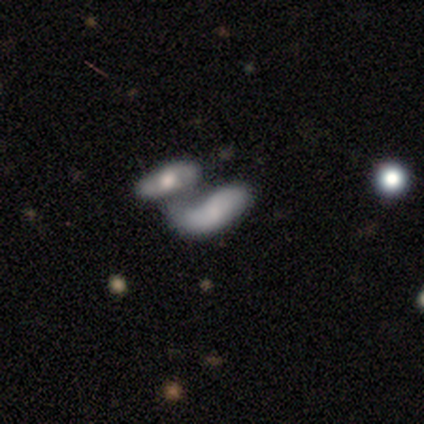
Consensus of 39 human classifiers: Smooth or featured? featured or disk (51%)
Edge-on disk? no (90%)
Bar? no (72%)
Spiral arms? yes (50%, tied with no)
Spiral winding? loose (78%)
Spiral arm count? 2 (89%)
Bulge size? none (56%)
Merging? merger (50%)